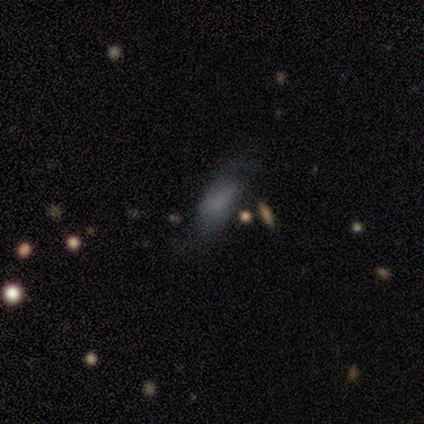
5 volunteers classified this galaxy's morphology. Q: Smooth or featured?
A: smooth (100%)
Q: How rounded?
A: in between (100%)
Q: Merging?
A: none (80%); runner-up: minor disturbance (20%)